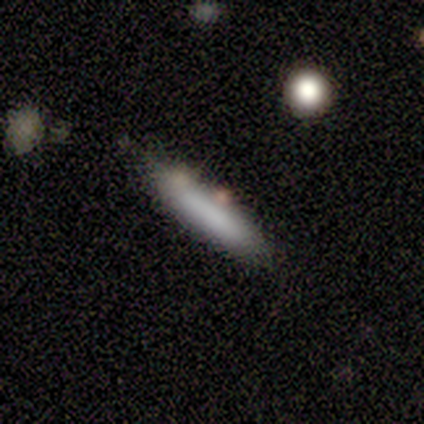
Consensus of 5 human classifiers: Smooth or featured: smooth — 100%
How rounded: cigar-shaped — 100%
Merging: none — 80% (minor disturbance — 20%)